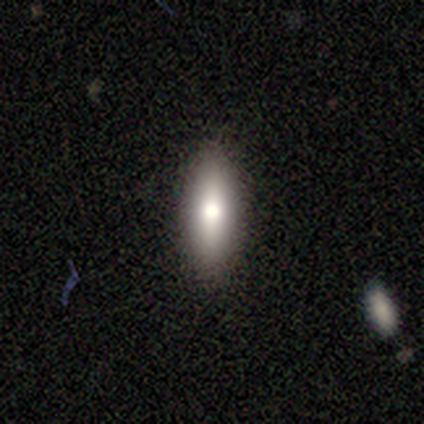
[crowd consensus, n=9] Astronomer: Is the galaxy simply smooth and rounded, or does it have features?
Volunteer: smooth — 78%.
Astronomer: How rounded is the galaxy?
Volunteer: cigar-shaped — 57% (runner-up: in between, 43%).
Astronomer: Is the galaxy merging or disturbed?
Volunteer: none — 100%.